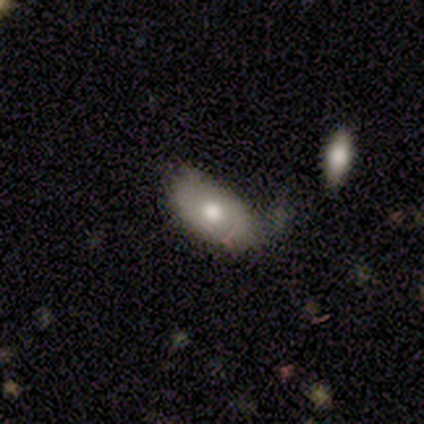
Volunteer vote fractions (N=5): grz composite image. It shows a smooth galaxy with no disk features (60%) that is in between round and cigar-shaped (100%). Merging: major disturbance (60%).